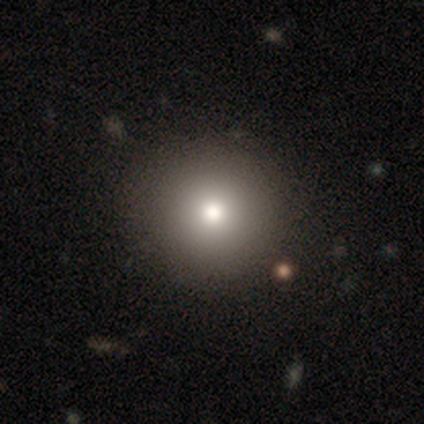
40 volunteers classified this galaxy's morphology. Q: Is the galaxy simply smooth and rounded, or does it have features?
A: smooth — 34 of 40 (85%).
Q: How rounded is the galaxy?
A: round — 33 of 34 (97%).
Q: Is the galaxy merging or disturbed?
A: none — 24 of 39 (62%).